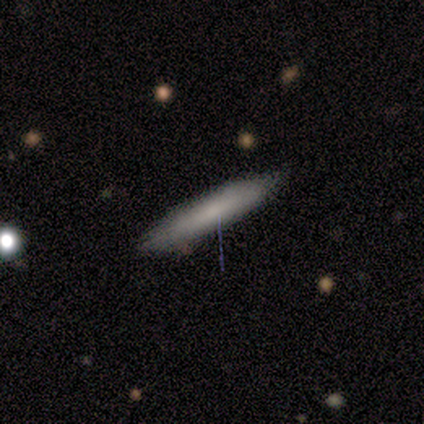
smooth 60%, featured or disk 20%, star or artifact 20%. Down the decision tree: how rounded — cigar-shaped (67%); merging — none (75%).